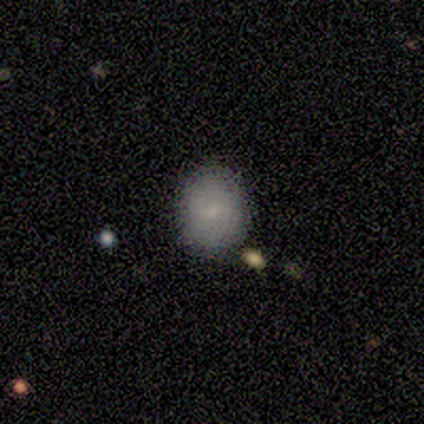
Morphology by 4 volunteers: Q: Smooth or featured?
A: smooth (75%); runner-up: star or artifact (25%)
Q: How rounded?
A: round (67%); runner-up: in between (33%)
Q: Merging?
A: none (67%); runner-up: merger (33%)